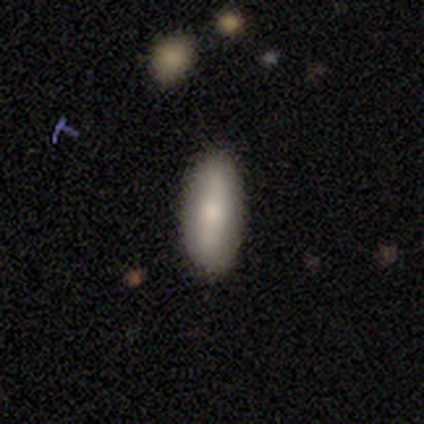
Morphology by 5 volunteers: Volunteers were most divided on "how rounded": in between: 80%, cigar-shaped: 20%, round: 0%. More confident: smooth or featured — smooth (100%); merging — none (100%).